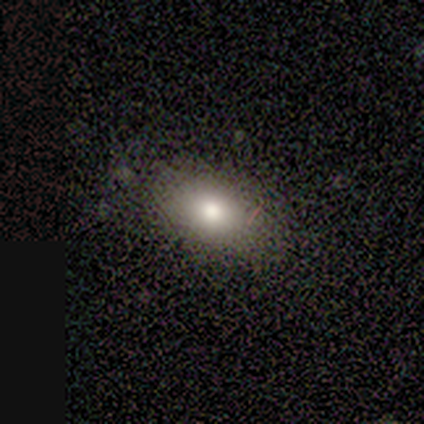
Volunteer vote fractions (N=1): Consensus on every question: smooth or featured — star or artifact (100%).